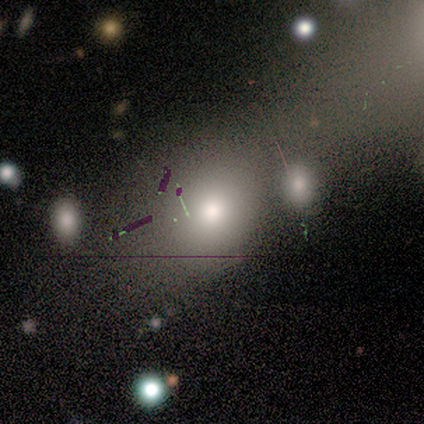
Smooth or featured?
  - smooth: 50% *
  - featured or disk: 33%
  - star or artifact: 17%
How rounded?
  - round: 67% *
  - in between: 33%
  - cigar-shaped: 0%
Merging?
  - minor disturbance: 40% * (tied)
  - merger: 40% * (tied)
  - none: 20%
  - major disturbance: 0%